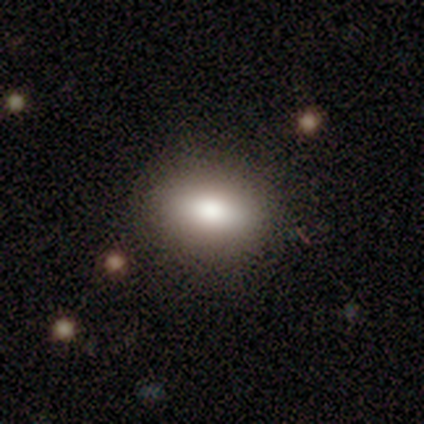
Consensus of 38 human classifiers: Q: Smooth or featured?
A: smooth (95%); runner-up: featured or disk (5%)
Q: How rounded?
A: in between (75%); runner-up: round (19%)
Q: Merging?
A: none (55%); runner-up: minor disturbance (5%)